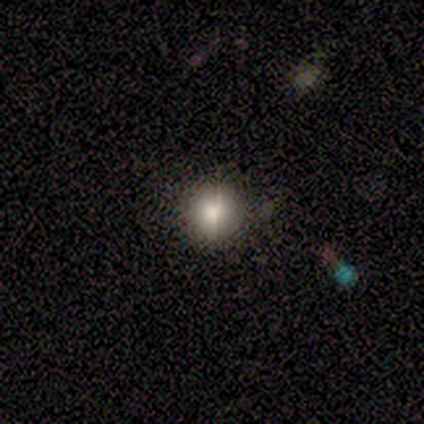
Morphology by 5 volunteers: This is clearly a smooth galaxy (80%). How rounded: likely round (75%). Merging: likely none (75%).